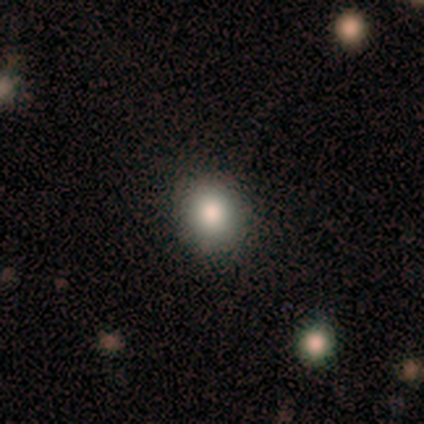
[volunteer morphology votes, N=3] smooth_or_featured: featured or disk (p=0.67) [alt: smooth p=0.33]
disk_edge_on: no (p=1.00)
bar: no (p=1.00)
has_spiral_arms: no (p=1.00)
bulge_size: moderate (p=1.00)
merging: none (p=0.67) [alt: minor disturbance p=0.33]